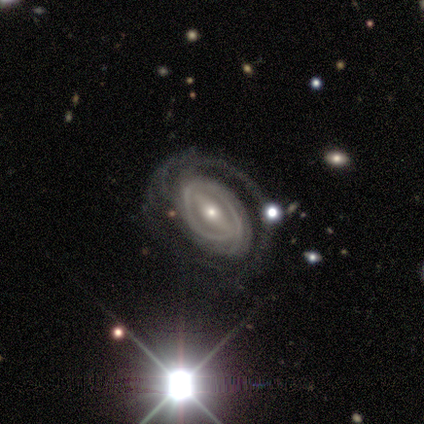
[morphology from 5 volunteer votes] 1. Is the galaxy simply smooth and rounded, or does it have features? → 80% featured or disk, 20% star or artifact, 0% smooth.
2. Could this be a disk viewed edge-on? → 75% no, 25% yes.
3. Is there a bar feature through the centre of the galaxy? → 67% weak, 33% strong, 0% no.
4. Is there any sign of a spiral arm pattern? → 100% yes, 0% no.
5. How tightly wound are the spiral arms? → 67% medium, 33% tight, 0% loose.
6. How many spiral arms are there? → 67% can't tell, 33% 3, 0% 1, 0% 2, 0% 4, 0% more than 4.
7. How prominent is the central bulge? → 67% small, 33% moderate, 0% dominant, 0% large, 0% none.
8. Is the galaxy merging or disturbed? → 50% major disturbance, 25% none, 25% merger, 0% minor disturbance.